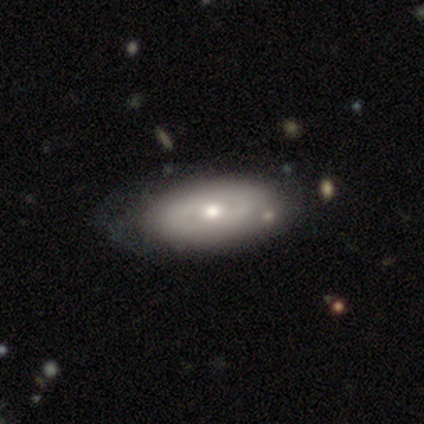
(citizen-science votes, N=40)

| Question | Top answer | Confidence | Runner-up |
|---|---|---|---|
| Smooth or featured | featured or disk | 65% | smooth (32%) |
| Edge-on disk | no | 96% | yes (4%) |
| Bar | no | 88% | weak (8%) |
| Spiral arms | no | 84% | yes (16%) |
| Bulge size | moderate | 80% | small (12%) |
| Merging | none | 46% | minor disturbance (18%) |